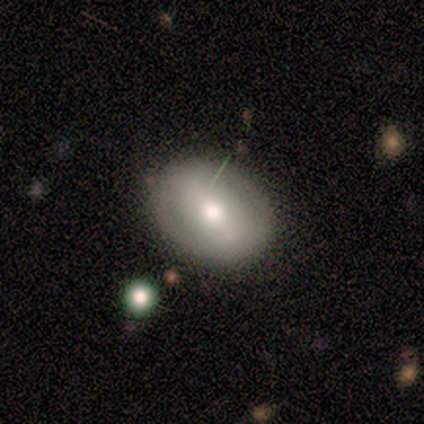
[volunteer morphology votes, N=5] Q: Smooth or featured?
A: featured or disk (80%); runner-up: smooth (20%)
Q: Edge-on disk?
A: no (75%); runner-up: yes (25%)
Q: Bar?
A: no (67%); runner-up: strong (33%)
Q: Spiral arms?
A: no (100%)
Q: Bulge size?
A: moderate (67%); runner-up: small (33%)
Q: Merging?
A: none (80%); runner-up: minor disturbance (20%)